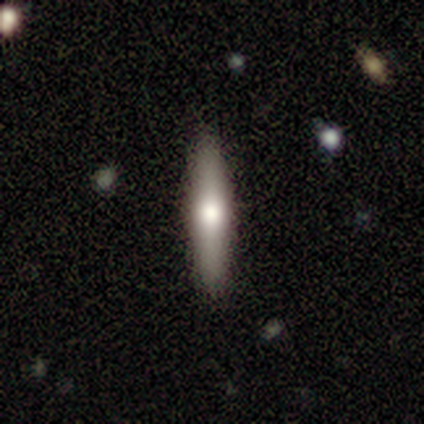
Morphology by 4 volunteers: This appears to be a smooth galaxy with no disk features (50%, tied with featured or disk) that is cigar-shaped (100%). Merging: none (75%).